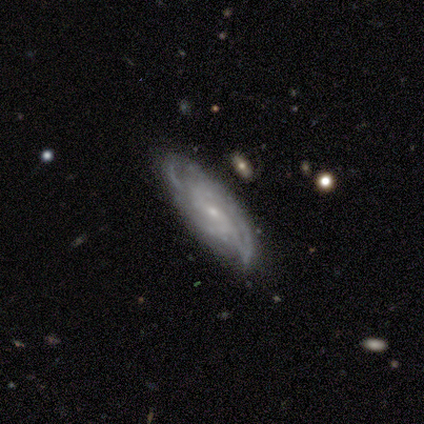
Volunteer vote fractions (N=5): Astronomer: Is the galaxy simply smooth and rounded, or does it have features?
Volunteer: featured or disk — 80%.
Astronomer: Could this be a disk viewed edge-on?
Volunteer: no — 100%.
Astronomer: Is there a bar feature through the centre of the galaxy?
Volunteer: weak — 50%, tied with no at 50%.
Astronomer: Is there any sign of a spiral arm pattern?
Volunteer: yes — 100%.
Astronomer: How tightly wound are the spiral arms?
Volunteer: loose — 50%.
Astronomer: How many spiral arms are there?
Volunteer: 2 — 75%.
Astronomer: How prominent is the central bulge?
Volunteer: small — 75%.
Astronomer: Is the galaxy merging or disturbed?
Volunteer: none — 75%.